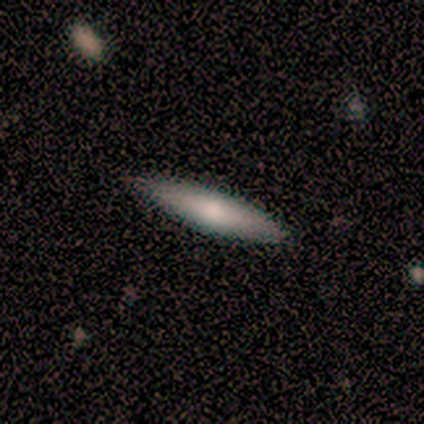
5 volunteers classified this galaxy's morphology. smooth_or_featured: smooth (p=0.60) [alt: featured or disk p=0.20]
how_rounded: cigar-shaped (p=1.00)
merging: none (p=1.00)